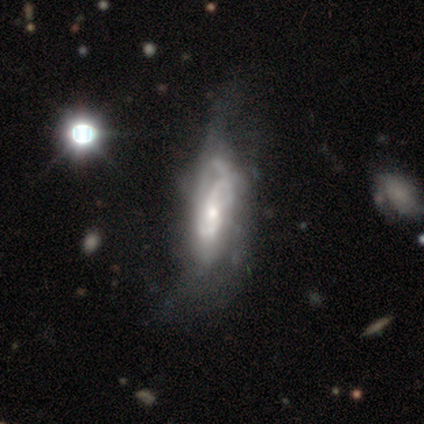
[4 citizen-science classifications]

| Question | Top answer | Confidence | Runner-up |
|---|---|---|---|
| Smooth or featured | featured or disk | 100% | — |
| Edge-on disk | no | 100% | — |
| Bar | no | 50% | strong (25%) |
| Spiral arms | yes | 100% | — |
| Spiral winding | medium | 75% | loose (25%) |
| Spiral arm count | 2 | 75% | more than 4 (25%) |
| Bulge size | small | 50% | large (25%) |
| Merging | minor disturbance | 75% | none (25%) |